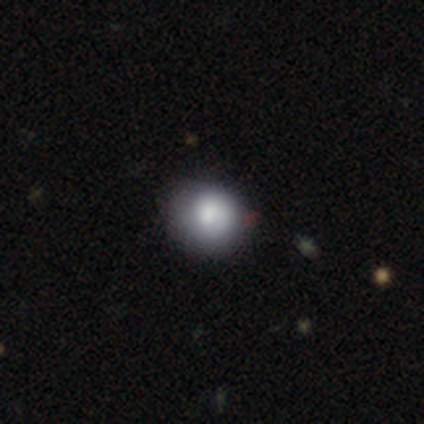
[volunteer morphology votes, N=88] Q: Smooth or featured?
A: smooth (78%); runner-up: featured or disk (17%)
Q: How rounded?
A: round (81%); runner-up: in between (19%)
Q: Merging?
A: none (79%); runner-up: minor disturbance (20%)